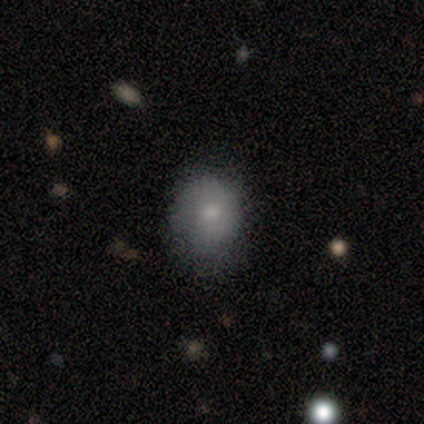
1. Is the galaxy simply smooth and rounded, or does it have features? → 100% smooth, 0% featured or disk, 0% star or artifact.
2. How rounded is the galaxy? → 100% round, 0% in between, 0% cigar-shaped.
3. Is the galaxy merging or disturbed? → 80% none, 20% minor disturbance, 0% major disturbance, 0% merger.